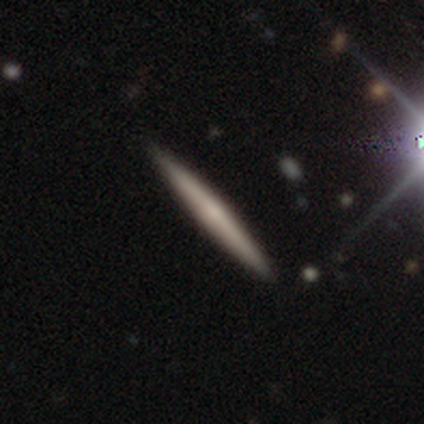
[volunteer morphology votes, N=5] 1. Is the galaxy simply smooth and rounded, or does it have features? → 60% featured or disk, 40% smooth, 0% star or artifact.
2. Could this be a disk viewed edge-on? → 100% yes, 0% no.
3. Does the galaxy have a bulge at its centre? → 33% boxy (tied), 33% none (tied), 33% rounded (tied).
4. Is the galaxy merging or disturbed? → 60% none, 40% minor disturbance, 0% major disturbance, 0% merger.